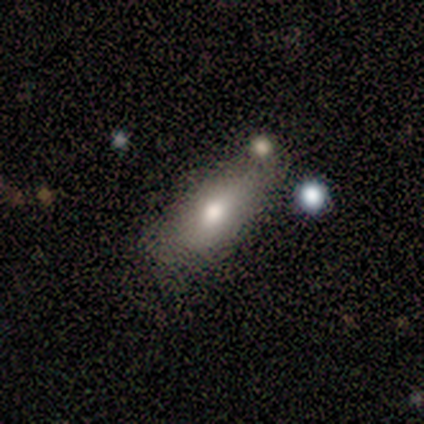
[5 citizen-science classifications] Smooth or featured? 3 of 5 (60%) said smooth. How rounded? 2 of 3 (67%) said in between. Merging? 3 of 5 (60%) said none.